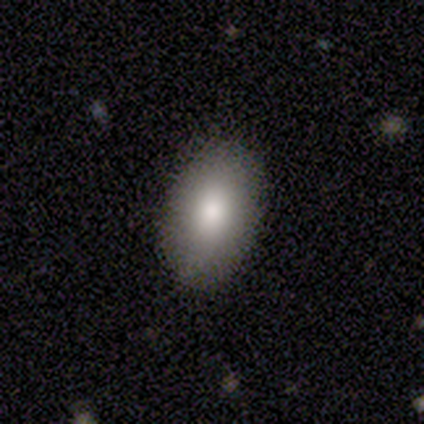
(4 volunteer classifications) Q: Smooth or featured?
A: smooth (50%); tied with: star or artifact (50%)
Q: How rounded?
A: in between (100%)
Q: Merging?
A: none (100%)